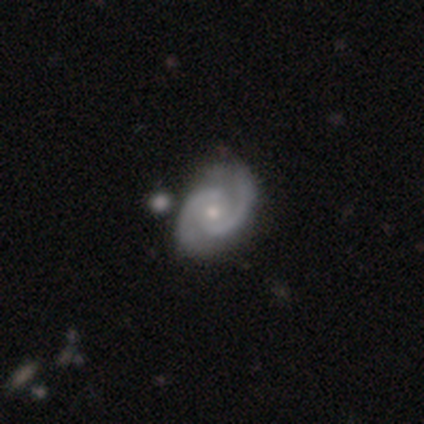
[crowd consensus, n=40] Smooth or featured? featured or disk (92%)
Edge-on disk? no (100%)
Bar? no (70%)
Spiral arms? yes (100%)
Spiral winding? medium (49%)
Spiral arm count? 2 (97%)
Bulge size? moderate (49%, tied with small)
Merging? none (50%)